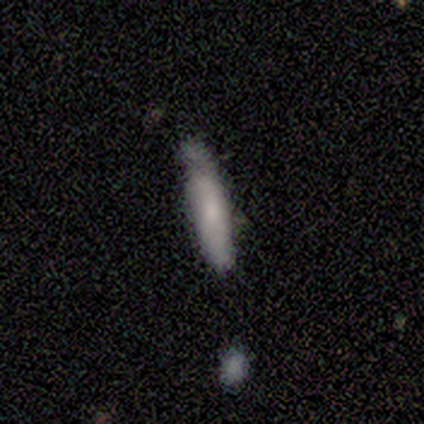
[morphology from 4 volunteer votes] This is clearly a smooth galaxy (100%). How rounded: clearly cigar-shaped (100%). Merging: possibly none (50%, tied with minor disturbance).